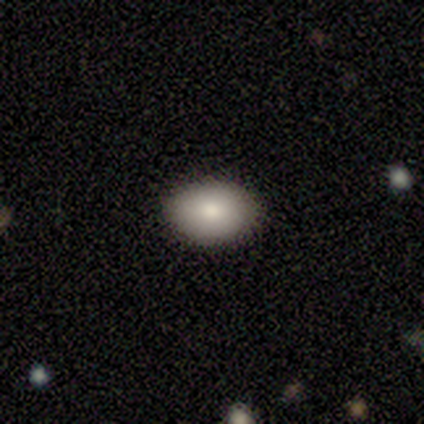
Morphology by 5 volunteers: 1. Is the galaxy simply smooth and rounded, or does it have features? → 100% smooth, 0% featured or disk, 0% star or artifact.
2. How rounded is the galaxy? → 60% in between, 40% round, 0% cigar-shaped.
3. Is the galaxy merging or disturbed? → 100% none, 0% minor disturbance, 0% major disturbance, 0% merger.